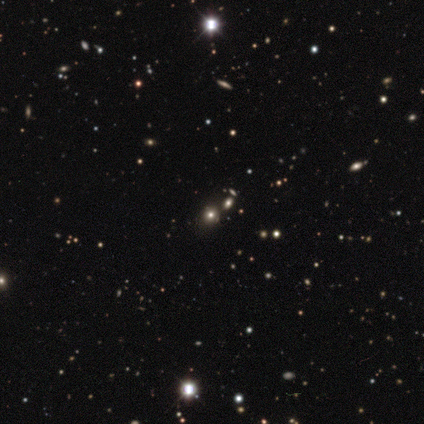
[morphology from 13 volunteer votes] smooth_or_featured: star or artifact (p=0.46) [alt: smooth p=0.38]